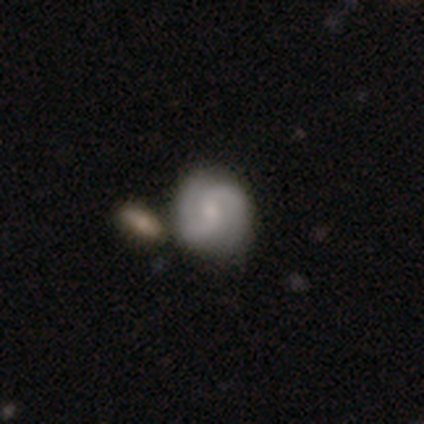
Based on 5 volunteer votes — Smooth or featured? featured or disk (80%)
Edge-on disk? no (100%)
Bar? weak (50%, tied with no)
Spiral arms? yes (100%)
Spiral winding? tight (75%)
Spiral arm count? 2 (75%)
Bulge size? small (50%)
Merging? none (40%, tied with merger)